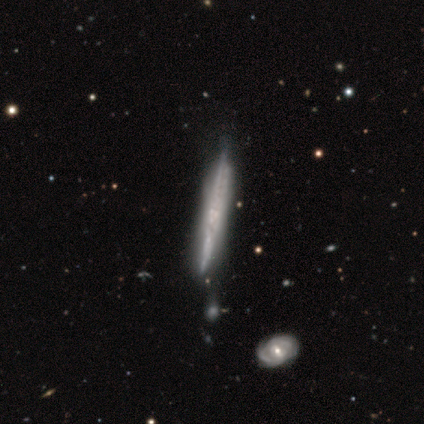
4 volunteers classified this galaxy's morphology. This is possibly a smooth galaxy (50%, tied with featured or disk). How rounded: clearly cigar-shaped (100%). Merging: clearly merger (100%).